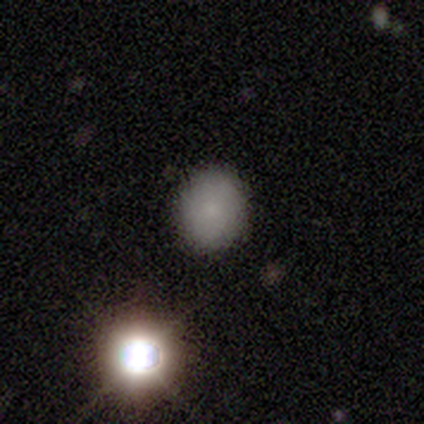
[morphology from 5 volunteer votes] Smooth or featured? smooth (60%)
How rounded? round (100%)
Merging? none (100%)